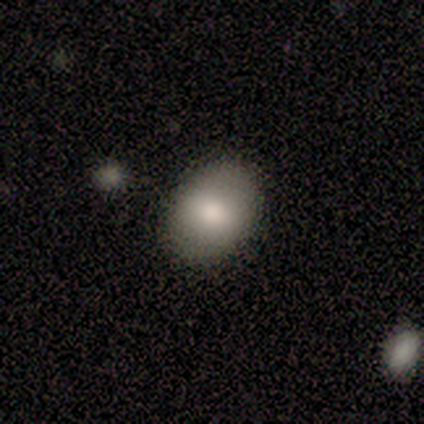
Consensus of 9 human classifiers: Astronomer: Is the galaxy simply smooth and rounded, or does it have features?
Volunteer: smooth — 89%.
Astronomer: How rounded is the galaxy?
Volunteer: in between — 75%.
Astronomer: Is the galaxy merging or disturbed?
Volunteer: none — 100%.